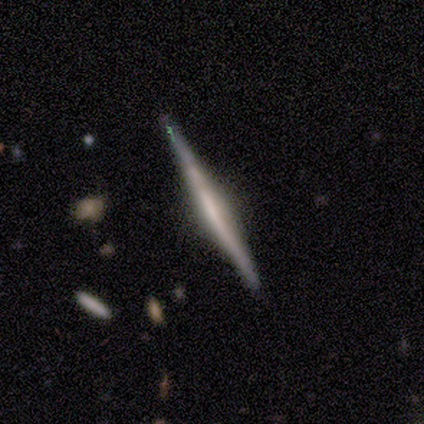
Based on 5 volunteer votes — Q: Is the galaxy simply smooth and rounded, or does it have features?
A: featured or disk — 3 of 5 (60%).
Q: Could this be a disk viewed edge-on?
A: yes — 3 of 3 (100%).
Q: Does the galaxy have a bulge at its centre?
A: boxy — 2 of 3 (67%).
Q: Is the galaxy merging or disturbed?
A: none — 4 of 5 (80%).